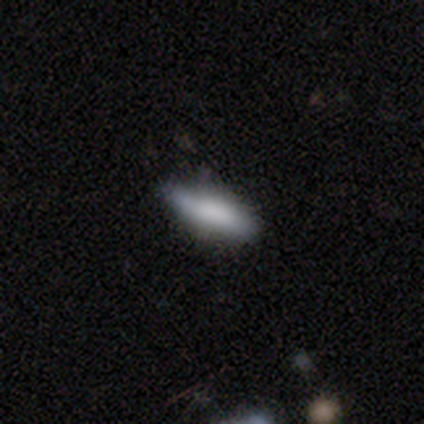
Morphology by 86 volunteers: smooth-or-featured: smooth: 70% | featured or disk: 17% | star or artifact: 13%
  how-rounded: in between: 57% | cigar-shaped: 43% | round: 0%
  merging: none: 69% | minor disturbance: 27% | major disturbance: 3% | merger: 1%